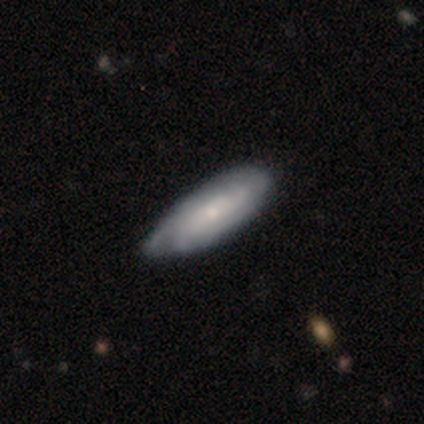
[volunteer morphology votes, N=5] Smooth or featured? smooth (60%)
How rounded? in between (100%)
Merging? none (80%)